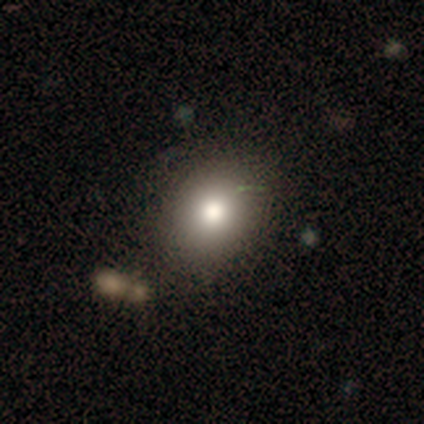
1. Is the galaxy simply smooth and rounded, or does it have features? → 73% smooth, 19% star or artifact, 9% featured or disk.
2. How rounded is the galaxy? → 62% round, 38% in between, 0% cigar-shaped.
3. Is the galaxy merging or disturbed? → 81% none, 8% minor disturbance, 7% major disturbance, 4% merger.